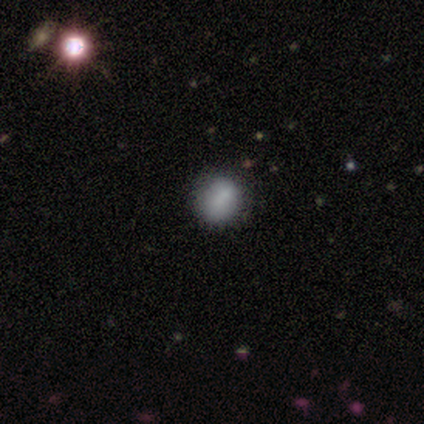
Q: Smooth or featured?
A: smooth (74%); runner-up: featured or disk (18%)
Q: How rounded?
A: round (79%); runner-up: in between (21%)
Q: Merging?
A: none (46%); runner-up: minor disturbance (9%)